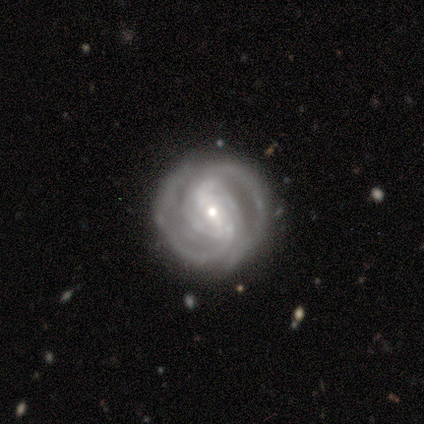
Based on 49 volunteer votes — A featured or disk galaxy (80%) with a weak bar (51%), 2 (56%) tight (69%) spiral arms (92%) and a small central bulge (54%). Merging: none (80%).